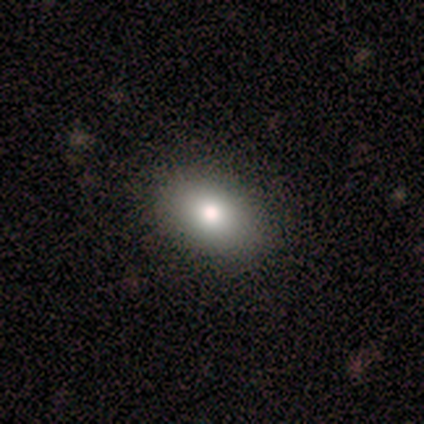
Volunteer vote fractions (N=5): Smooth or featured?
  - smooth: 100% *
  - featured or disk: 0%
  - star or artifact: 0%
How rounded?
  - in between: 80% *
  - cigar-shaped: 20%
  - round: 0%
Merging?
  - none: 100% *
  - minor disturbance: 0%
  - major disturbance: 0%
  - merger: 0%